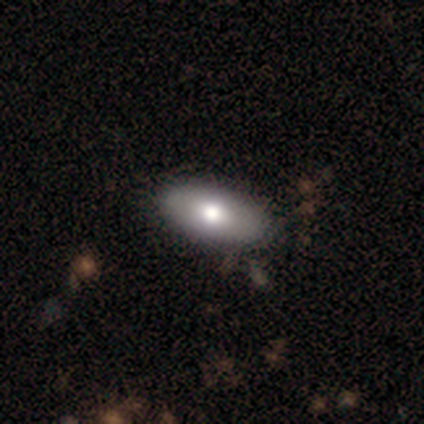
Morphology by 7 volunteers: Smooth or featured: smooth — 71% (featured or disk — 29%)
How rounded: in between — 100%
Merging: none — 86% (minor disturbance — 14%)